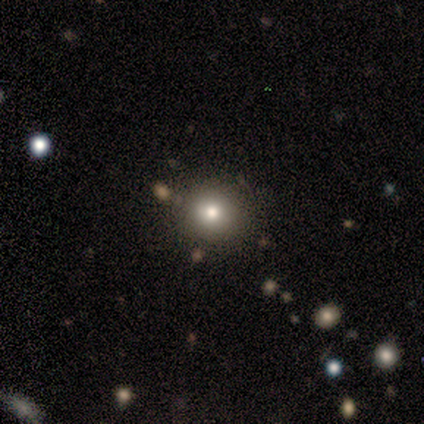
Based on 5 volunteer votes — smooth_or_featured: smooth (p=1.00)
how_rounded: round (p=1.00)
merging: none (p=1.00)